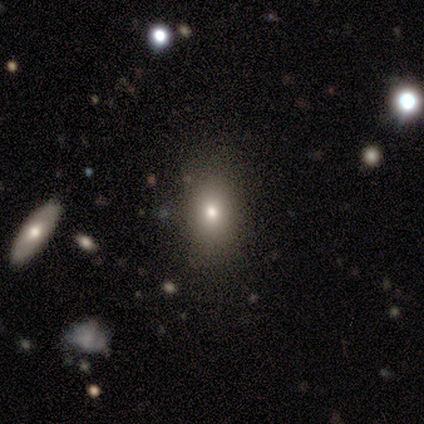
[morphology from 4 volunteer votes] Smooth or featured? 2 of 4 (50%, tied with featured or disk) said smooth. How rounded? 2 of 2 (100%) said in between. Merging? 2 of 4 (50%, tied with minor disturbance) said none.